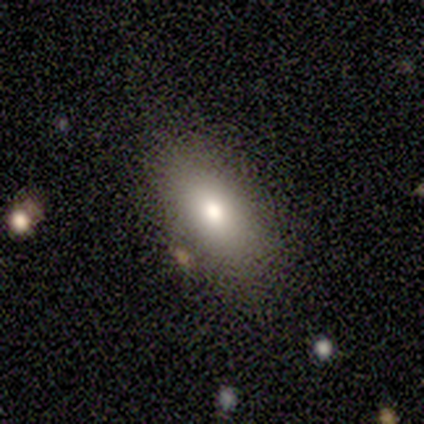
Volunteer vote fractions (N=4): Smooth or featured? smooth (100%)
How rounded? in between (100%)
Merging? none (100%)